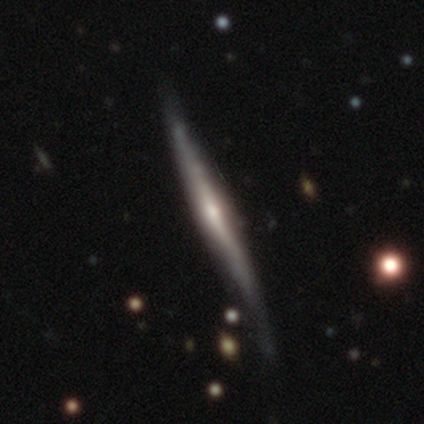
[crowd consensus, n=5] featured or disk 60%, smooth 40%, star or artifact 0%. Down the decision tree: edge-on disk — yes (100%); edge-on bulge — rounded (67%); merging — none (60%).